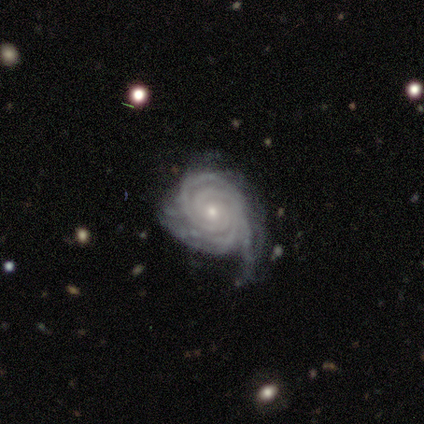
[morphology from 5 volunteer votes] smooth-or-featured: featured or disk: 100% | smooth: 0% | star or artifact: 0%
  disk-edge-on: no: 100% | yes: 0%
    bar: no: 80% | weak: 20% | strong: 0%
    has-spiral-arms: yes: 100% | no: 0%
      spiral-winding: tight: 100% | medium: 0% | loose: 0%
      spiral-arm-count: 2: 40% | 3: 20% | 4: 20% | more than 4: 20% | 1: 0% | can't tell: 0%
    bulge-size: small: 80% | moderate: 20% | dominant: 0% | large: 0% | none: 0%
  merging: minor disturbance: 80% | major disturbance: 20% | none: 0% | merger: 0%